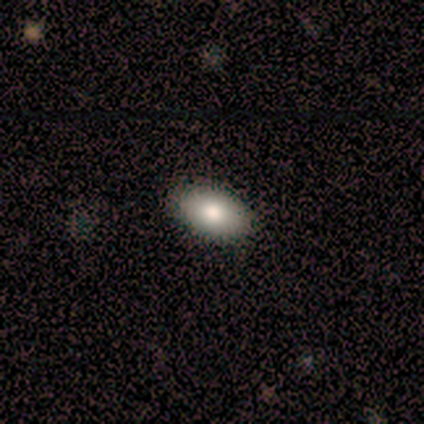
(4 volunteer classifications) smooth_or_featured: smooth (p=1.00)
how_rounded: in between (p=1.00)
merging: none (p=1.00)